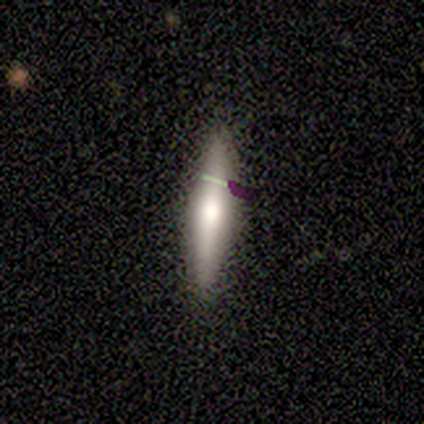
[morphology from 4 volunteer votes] This appears to be a smooth galaxy with no disk features (75%) that is in between round and cigar-shaped (67%). Merging: none (75%).